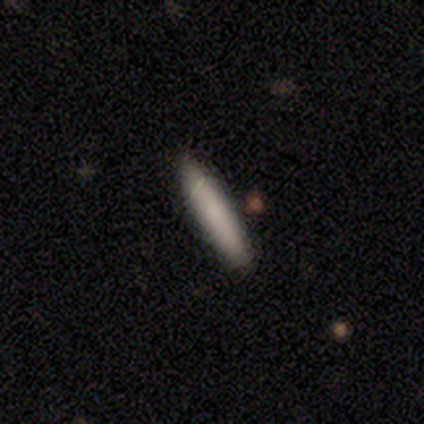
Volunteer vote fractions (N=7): smooth_or_featured: smooth (p=1.00)
how_rounded: cigar-shaped (p=0.86) [alt: in between p=0.14]
merging: none (p=1.00)